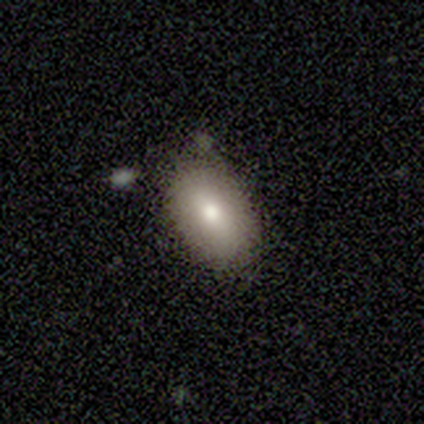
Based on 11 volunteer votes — Q: Smooth or featured?
A: smooth (64%); runner-up: featured or disk (36%)
Q: How rounded?
A: in between (100%)
Q: Merging?
A: none (82%); runner-up: minor disturbance (9%)